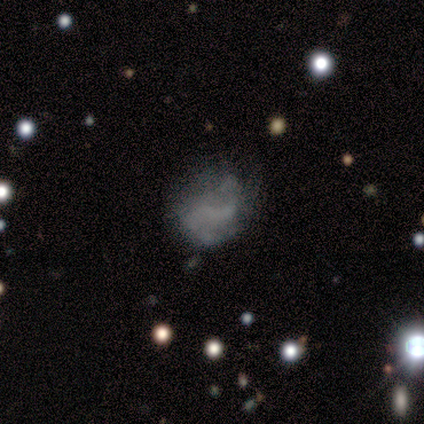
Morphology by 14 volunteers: A smooth galaxy with no disk features (50%, tied with featured or disk) that is round (57%). Merging: none (36%, tied with minor disturbance).